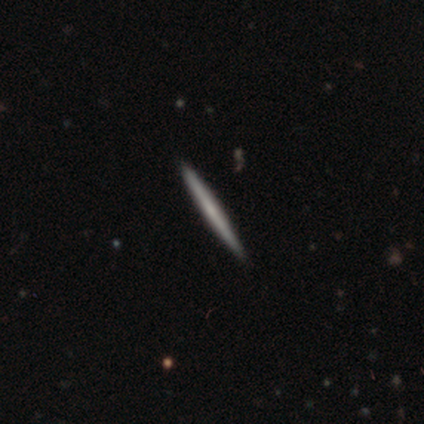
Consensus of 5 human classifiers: smooth_or_featured: featured or disk (p=0.80) [alt: smooth p=0.20]
disk_edge_on: yes (p=1.00)
edge_on_bulge: none (p=0.50) [tied with: rounded p=0.50]
merging: none (p=1.00)